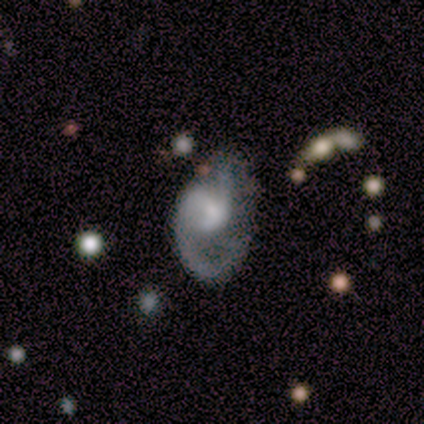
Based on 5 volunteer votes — Volunteers were most divided on "bar" (2-way tie): strong: 50%, no: 50%, weak: 0%; "spiral winding" (2-way tie): medium: 50%, loose: 50%, tight: 0%; "spiral arm count" (2-way tie): 1: 50%, 2: 50%, 3: 0%, 4: 0%, more than 4: 0%, can't tell: 0%; "bulge size" (2-way tie): small: 50%, none: 50%, dominant: 0%, large: 0%, moderate: 0%. More confident: spiral arms — yes (100%); edge-on disk — no (67%); smooth or featured — featured or disk (60%); merging — none (50%).